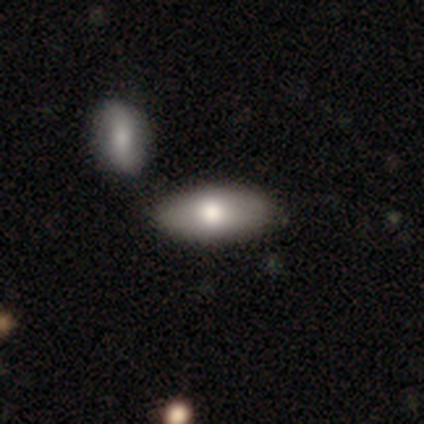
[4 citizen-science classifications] Volunteers were most divided on "merging": none: 75%, merger: 25%, minor disturbance: 0%, major disturbance: 0%. More confident: smooth or featured — smooth (100%); how rounded — in between (100%).